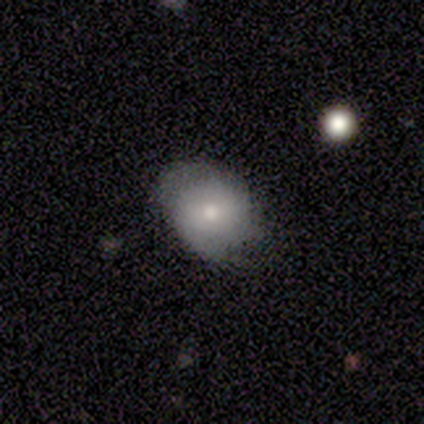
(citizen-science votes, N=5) smooth-or-featured: smooth: 80% | featured or disk: 20% | star or artifact: 0%
  how-rounded: in between: 50% | round: 25% | cigar-shaped: 25%
  merging: none: 80% | minor disturbance: 20% | major disturbance: 0% | merger: 0%